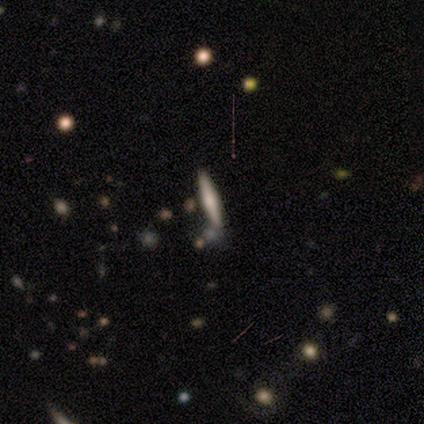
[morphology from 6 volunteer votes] This is likely a smooth galaxy (67%). How rounded: clearly cigar-shaped (100%). Merging: clearly none (83%).